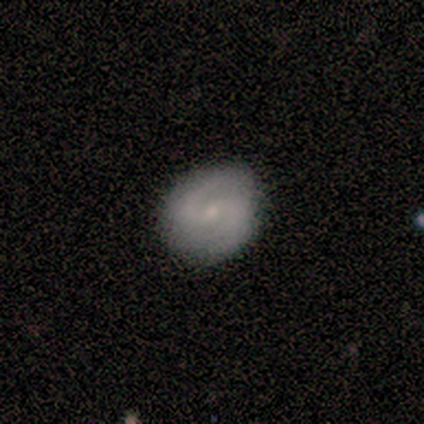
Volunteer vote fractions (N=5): Smooth or featured: featured or disk — 80% (smooth — 20%)
Edge-on disk: no — 100%
Bar: weak — 50% (tied with no — 50%)
Spiral arms: yes — 100%
Spiral winding: medium — 75% (tight — 25%)
Spiral arm count: 2 — 100%
Bulge size: small — 75% (moderate — 25%)
Merging: none — 100%